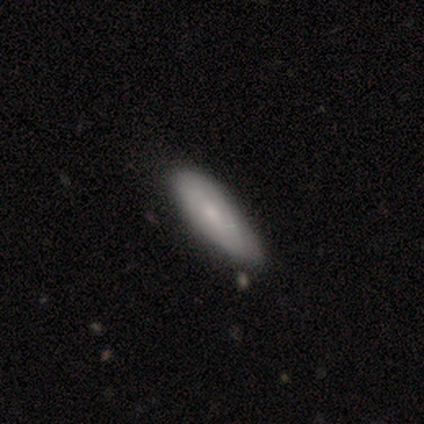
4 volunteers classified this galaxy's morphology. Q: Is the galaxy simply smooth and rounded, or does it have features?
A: smooth — 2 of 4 (50%, tied with featured or disk).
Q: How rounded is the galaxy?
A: in between — 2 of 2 (100%).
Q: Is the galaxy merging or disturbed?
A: minor disturbance — 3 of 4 (75%).